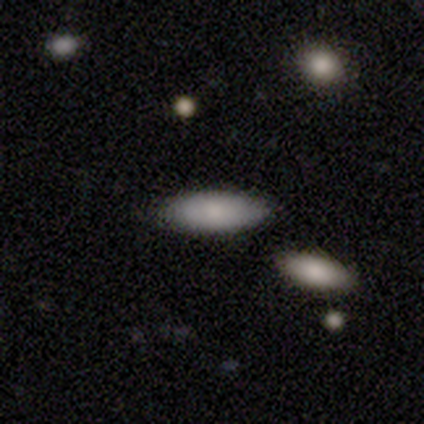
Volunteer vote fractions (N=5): Smooth or featured?
  - smooth: 80% *
  - featured or disk: 20%
  - star or artifact: 0%
How rounded?
  - in between: 50% * (tied)
  - cigar-shaped: 50% * (tied)
  - round: 0%
Merging?
  - none: 100% *
  - minor disturbance: 0%
  - major disturbance: 0%
  - merger: 0%